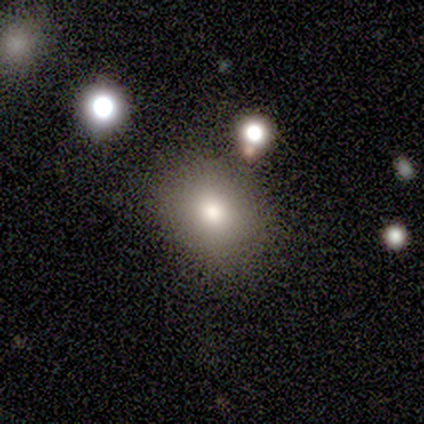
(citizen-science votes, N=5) smooth-or-featured: smooth: 80% | star or artifact: 20% | featured or disk: 0%
  how-rounded: round: 100% | in between: 0% | cigar-shaped: 0%
  merging: none: 100% | minor disturbance: 0% | major disturbance: 0% | merger: 0%